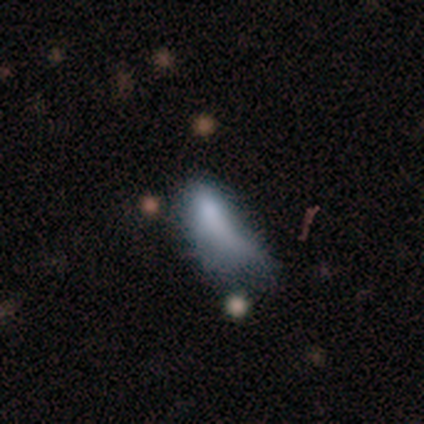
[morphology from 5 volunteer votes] type=smooth (80%); roundness=in between (50%, tied with cigar-shaped); merging=minor disturbance (50%).